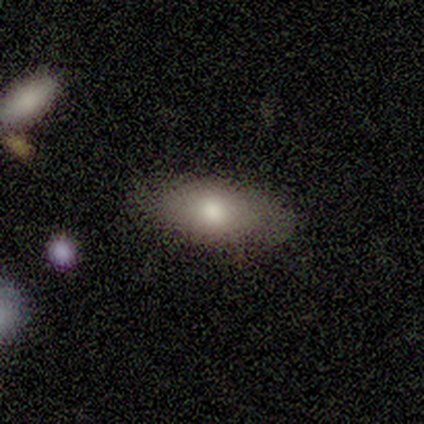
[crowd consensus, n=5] Morphology: type=smooth (60%); roundness=in between (100%); merging=none (100%).